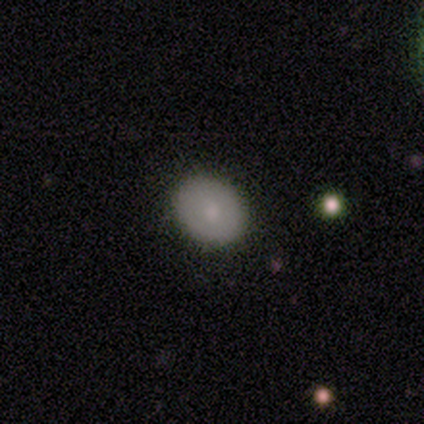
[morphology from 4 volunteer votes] A smooth galaxy with no disk features (50%, tied with featured or disk) that is in between round and cigar-shaped (100%). Merging: none (100%).